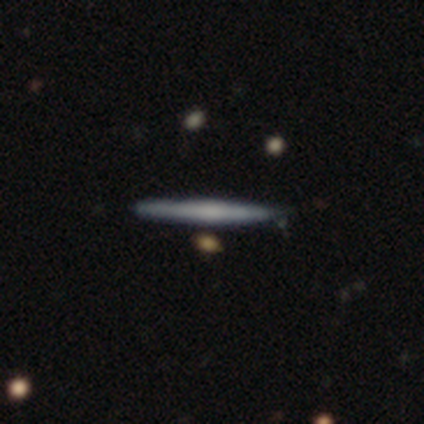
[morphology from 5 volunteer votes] smooth-or-featured: smooth: 60% | featured or disk: 40% | star or artifact: 0%
  how-rounded: cigar-shaped: 100% | round: 0% | in between: 0%
  merging: none: 40% (tied) | minor disturbance: 40% (tied) | merger: 20% | major disturbance: 0%